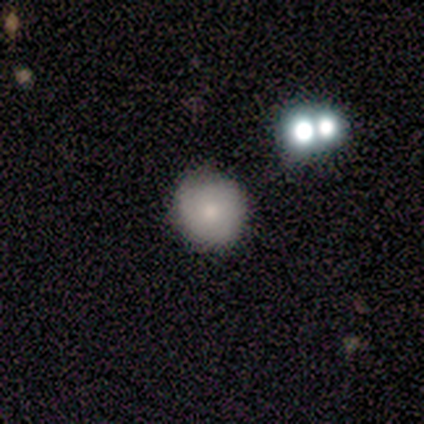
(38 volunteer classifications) smooth-or-featured: smooth: 61% | featured or disk: 32% | star or artifact: 8%
  how-rounded: round: 87% | in between: 9% | cigar-shaped: 4%
  merging: none: 60% | minor disturbance: 3% | major disturbance: 3% | merger: 0%